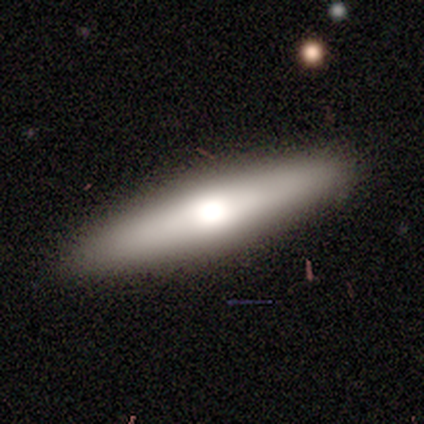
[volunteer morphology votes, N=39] Smooth or featured? 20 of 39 (51%) said featured or disk. Edge-on disk? 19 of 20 (95%) said yes. Edge-on bulge? 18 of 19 (95%) said rounded. Merging? 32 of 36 (89%) said none.